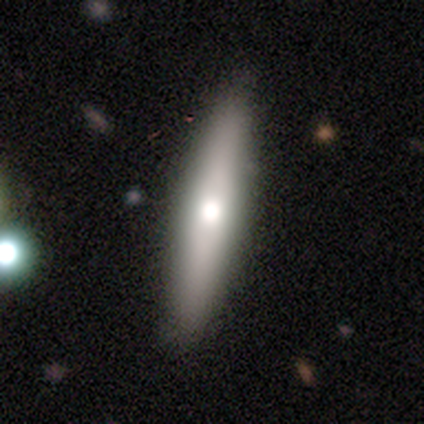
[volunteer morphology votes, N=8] Smooth or featured: smooth — 50% (tied with featured or disk — 50%)
How rounded: cigar-shaped — 100%
Merging: none — 75% (minor disturbance — 25%)